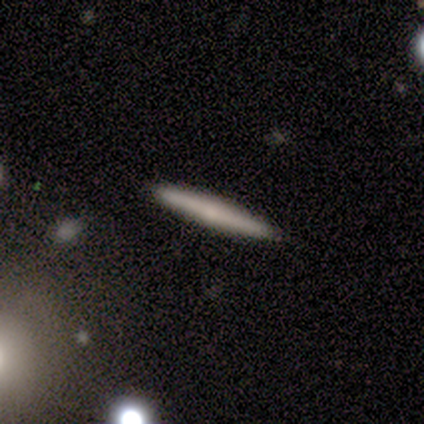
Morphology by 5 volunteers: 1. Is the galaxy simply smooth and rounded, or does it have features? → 60% featured or disk, 40% smooth, 0% star or artifact.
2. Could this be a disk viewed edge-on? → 100% yes, 0% no.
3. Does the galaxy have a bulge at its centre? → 100% rounded, 0% boxy, 0% none.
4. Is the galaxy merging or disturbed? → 100% none, 0% minor disturbance, 0% major disturbance, 0% merger.